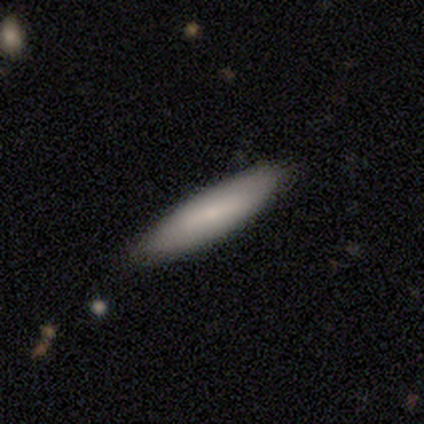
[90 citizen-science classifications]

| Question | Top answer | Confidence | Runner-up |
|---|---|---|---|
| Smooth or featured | smooth | 72% | featured or disk (20%) |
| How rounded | cigar-shaped | 69% | in between (31%) |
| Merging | none | 87% | minor disturbance (13%) |